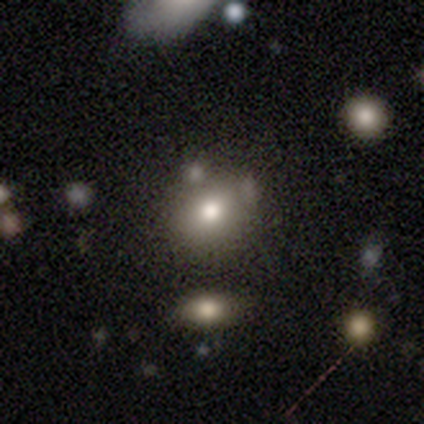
Overall: smooth (70%). How rounded: round (54%; in between 43%). Merging: none (56%; merger 21%).